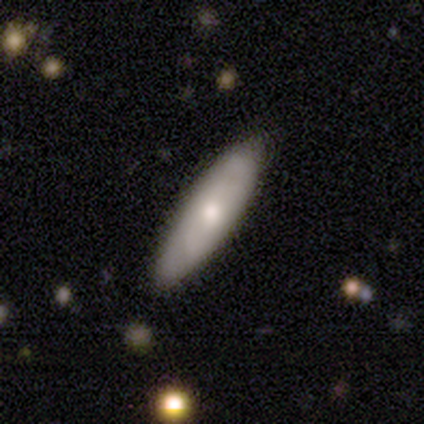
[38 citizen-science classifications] A smooth galaxy with no disk features (58%) that is cigar-shaped (73%). Merging: none (89%).